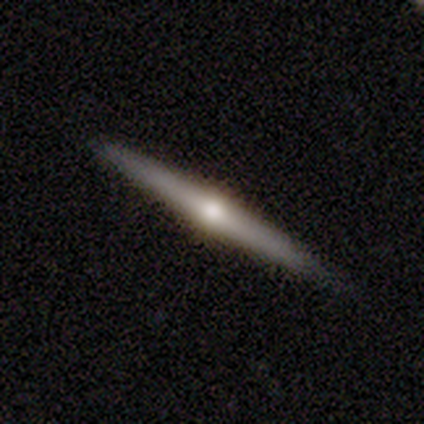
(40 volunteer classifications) This is likely a featured or disk galaxy (78%). It is clearly viewed edge-on (100%). Edge-on bulge: clearly rounded (94%). Merging: clearly none (87%).